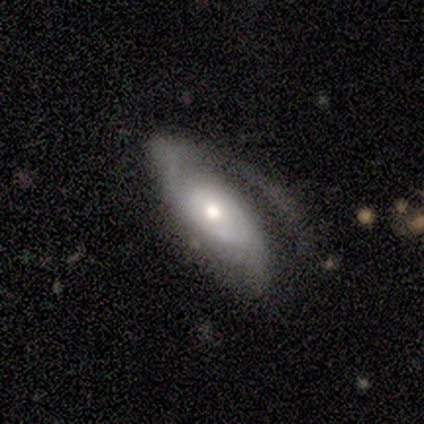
This is likely a featured or disk galaxy (60%). It is clearly not viewed edge-on (100%). Bar: clearly no (100%). Spiral arm pattern: clearly yes (100%). Spiral arm count: marginally 1 (33%, tied with 2 and can't tell). Spiral winding: marginally tight (33%, tied with medium and loose). Central bulge: likely moderate (67%). Merging: clearly none (80%).